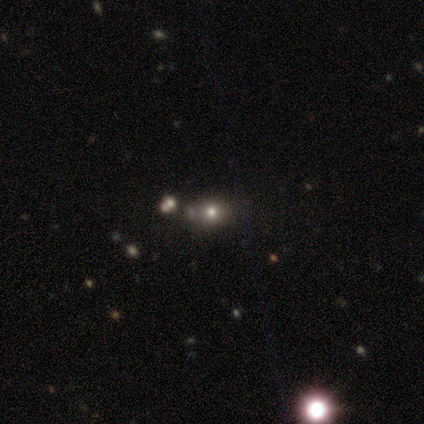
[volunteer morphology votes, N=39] smooth 64%, star or artifact 26%, featured or disk 10%. Down the decision tree: how rounded — round (60%); merging — none (62%).